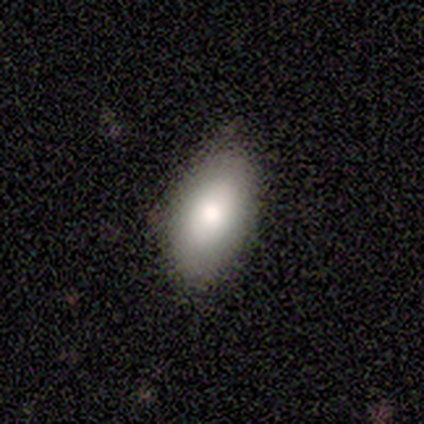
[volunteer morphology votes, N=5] A smooth galaxy with no disk features (80%) that is in between round and cigar-shaped (100%). Merging: none (60%).